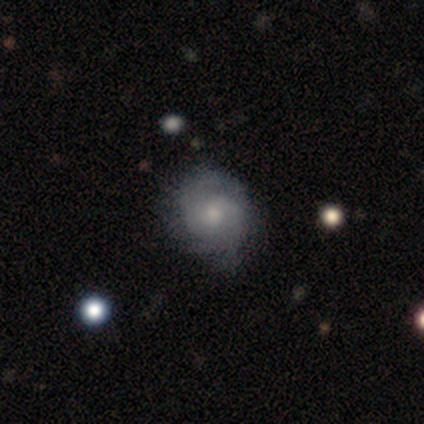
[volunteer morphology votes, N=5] type=smooth (60%); roundness=round (100%); merging=none (60%).